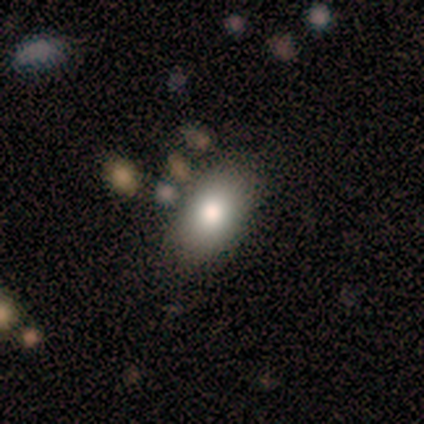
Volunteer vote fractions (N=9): Morphology: type=smooth (89%); roundness=in between (100%); merging=none (56%).